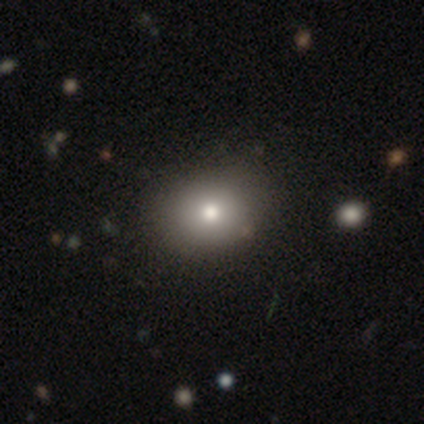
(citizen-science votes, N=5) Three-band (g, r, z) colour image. It shows a smooth galaxy with no disk features (100%) that is in between round and cigar-shaped (60%). Merging: none (100%).